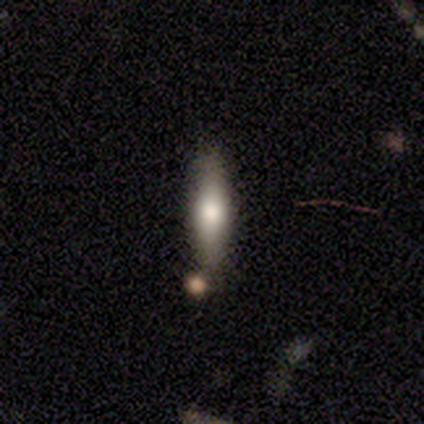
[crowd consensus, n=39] A smooth galaxy with no disk features (77%) that is cigar-shaped (80%). Merging: none (86%).